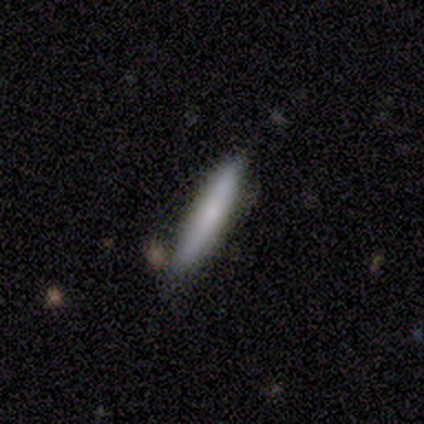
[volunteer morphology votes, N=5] Q: Smooth or featured?
A: smooth (100%)
Q: How rounded?
A: cigar-shaped (100%)
Q: Merging?
A: none (100%)